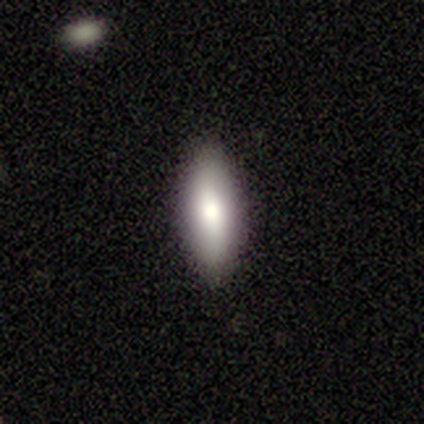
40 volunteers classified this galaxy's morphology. smooth 78%, featured or disk 22%, star or artifact 0%. Down the decision tree: how rounded — in between (74%); merging — none (85%).